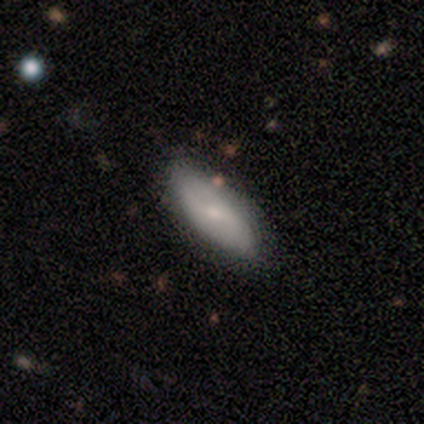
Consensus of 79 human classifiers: Smooth or featured? smooth (54%)
How rounded? in between (77%)
Merging? none (44%)